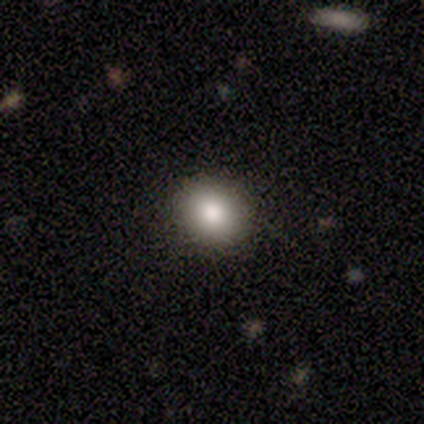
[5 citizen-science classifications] This is clearly a smooth galaxy (100%). How rounded: clearly round (100%). Merging: clearly none (100%).